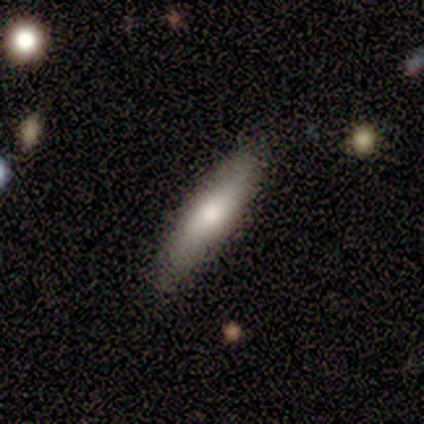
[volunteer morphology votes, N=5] Q: Smooth or featured?
A: smooth (80%); runner-up: featured or disk (20%)
Q: How rounded?
A: cigar-shaped (100%)
Q: Merging?
A: none (100%)